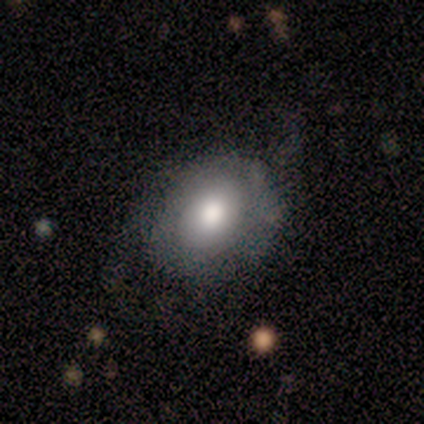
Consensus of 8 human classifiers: Smooth or featured? smooth (50%, tied with featured or disk)
How rounded? in between (75%)
Merging? none (62%)